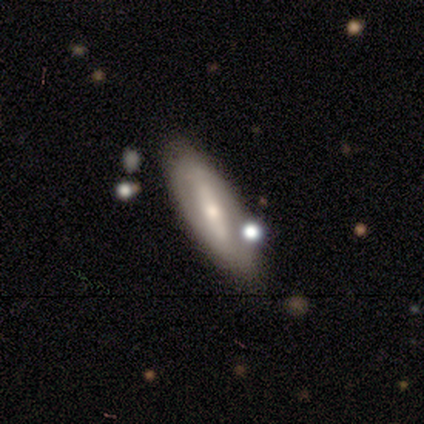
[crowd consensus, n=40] Smooth or featured? 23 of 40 (57%) said featured or disk. Edge-on disk? 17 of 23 (74%) said no. Bar? 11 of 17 (65%) said strong. Spiral arms? 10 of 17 (59%) said no. Bulge size? 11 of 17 (65%) said moderate. Merging? 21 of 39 (54%) said none.